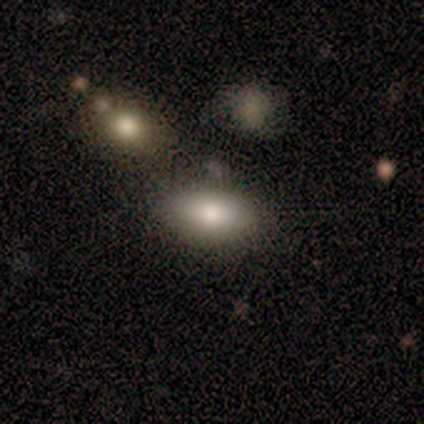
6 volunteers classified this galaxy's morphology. Overall: smooth (67%). How rounded: in between (100%). Merging: none (100%).